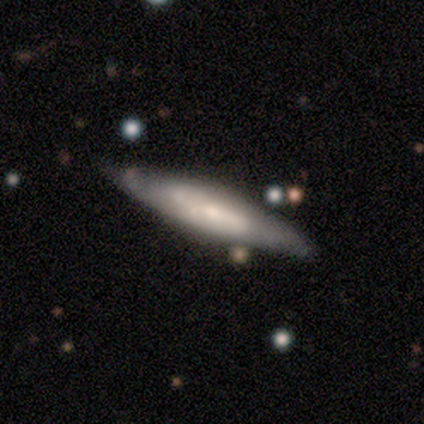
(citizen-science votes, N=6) smooth_or_featured: featured or disk (p=0.67) [alt: smooth p=0.33]
disk_edge_on: yes (p=0.75) [alt: no p=0.25]
edge_on_bulge: boxy (p=1.00)
merging: none (p=0.67) [alt: minor disturbance p=0.33]